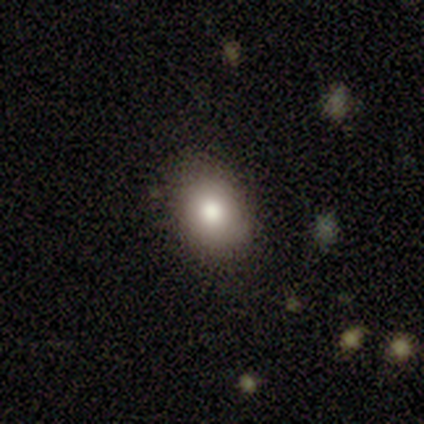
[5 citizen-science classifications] smooth-or-featured: smooth: 100% | featured or disk: 0% | star or artifact: 0%
  how-rounded: in between: 80% | round: 20% | cigar-shaped: 0%
  merging: none: 100% | minor disturbance: 0% | major disturbance: 0% | merger: 0%